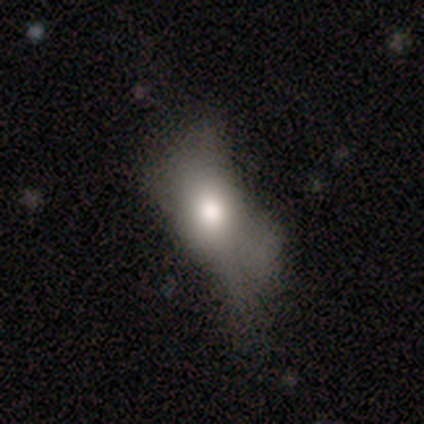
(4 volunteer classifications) A smooth galaxy with no disk features (50%, tied with star or artifact) that is in between round and cigar-shaped (50%, tied with cigar-shaped).

Vote fractions:
- Smooth or featured? smooth: 50% (tied) / star or artifact: 50% (tied) / featured or disk: 0%
- How rounded? in between: 50% (tied) / cigar-shaped: 50% (tied) / round: 0%
- Merging? minor disturbance: 50% (tied) / major disturbance: 50% (tied) / none: 0% / merger: 0%